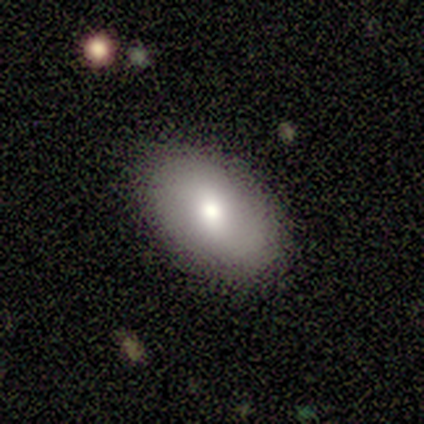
Overall: smooth (67%; featured or disk 28%). How rounded: in between (88%). Merging: none (94%).